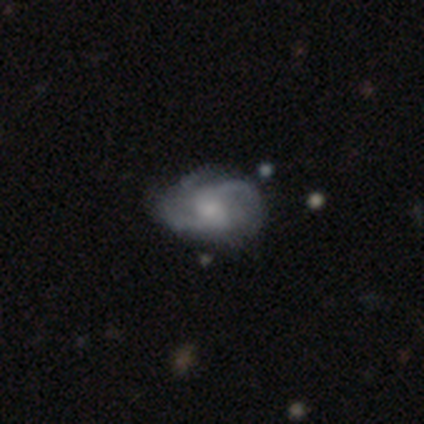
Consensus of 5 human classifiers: Q: Smooth or featured?
A: featured or disk (80%); runner-up: smooth (20%)
Q: Edge-on disk?
A: no (100%)
Q: Bar?
A: no (75%); runner-up: weak (25%)
Q: Spiral arms?
A: yes (100%)
Q: Spiral winding?
A: loose (50%); runner-up: tight (25%)
Q: Spiral arm count?
A: 2 (50%); tied with: 3 (50%)
Q: Bulge size?
A: small (50%); runner-up: moderate (25%)
Q: Merging?
A: none (60%); runner-up: minor disturbance (40%)